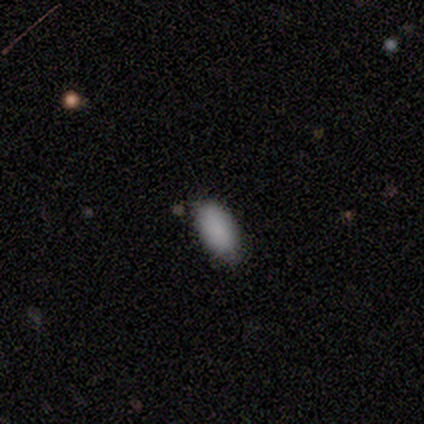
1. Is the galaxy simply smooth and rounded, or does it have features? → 100% smooth, 0% featured or disk, 0% star or artifact.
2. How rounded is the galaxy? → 90% in between, 10% cigar-shaped, 0% round.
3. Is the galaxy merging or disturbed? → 80% none, 20% minor disturbance, 0% major disturbance, 0% merger.